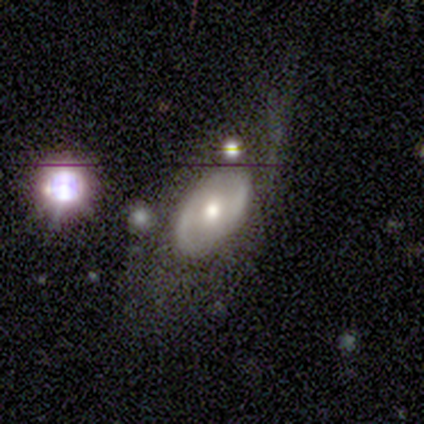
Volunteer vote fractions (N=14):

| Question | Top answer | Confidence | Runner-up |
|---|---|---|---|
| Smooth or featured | featured or disk | 64% | smooth (29%) |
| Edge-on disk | no | 100% | — |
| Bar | no | 89% | weak (11%) |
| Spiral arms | yes | 56% | no (44%) |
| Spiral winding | tight | 60% | medium (40%) |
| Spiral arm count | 2 | 60% | can't tell (40%) |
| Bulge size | moderate | 100% | — |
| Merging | none | 69% | major disturbance (23%) |